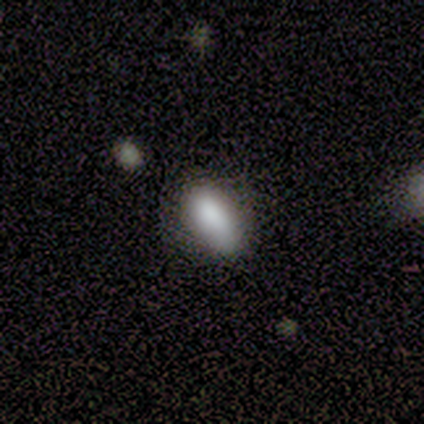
Overall: smooth (75%). How rounded: in between (100%). Merging: minor disturbance (67%; none 33%).